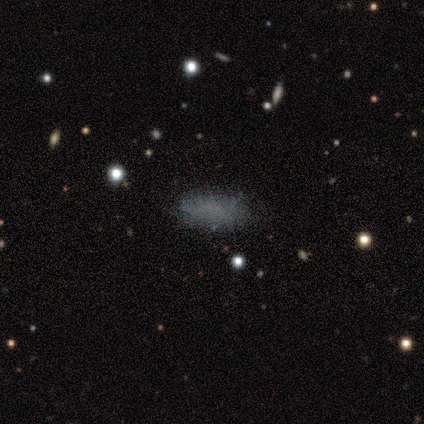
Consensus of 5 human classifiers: smooth_or_featured: smooth (p=0.40) [tied with: featured or disk p=0.40]
how_rounded: in between (p=0.50) [tied with: cigar-shaped p=0.50]
merging: none (p=0.75) [alt: minor disturbance p=0.25]